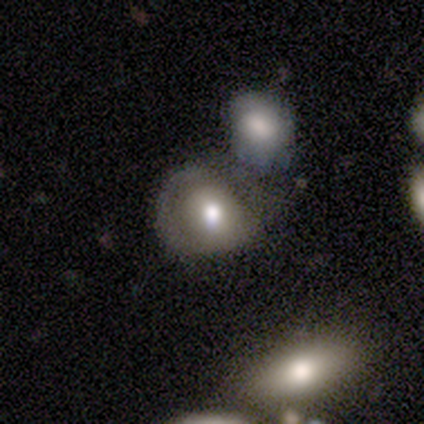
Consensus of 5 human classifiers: Volunteers were most divided on "how rounded": round: 60%, in between: 40%, cigar-shaped: 0%. Remaining: smooth or featured — smooth (100%); merging — merger (40%).